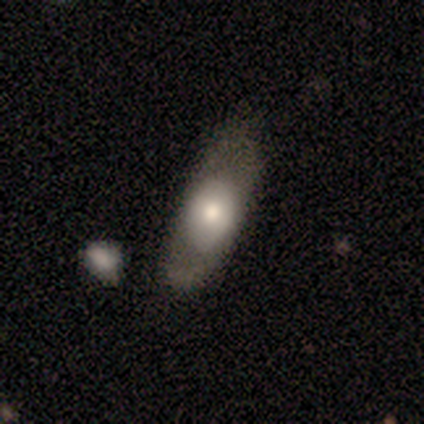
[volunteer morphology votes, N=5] Smooth or featured? featured or disk (60%)
Edge-on disk? no (67%)
Bar? no (100%)
Spiral arms? no (100%)
Bulge size? dominant (50%, tied with small)
Merging? none (80%)